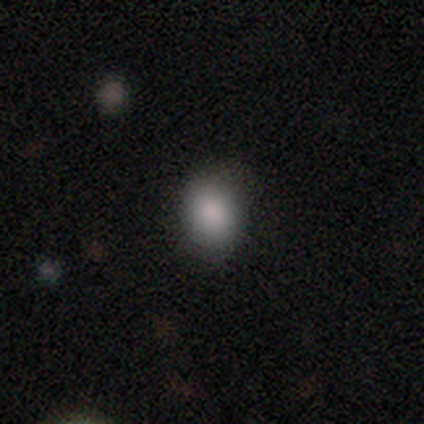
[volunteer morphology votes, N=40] This is clearly a smooth galaxy (92%). How rounded: possibly round (57%). Merging: clearly none (87%).